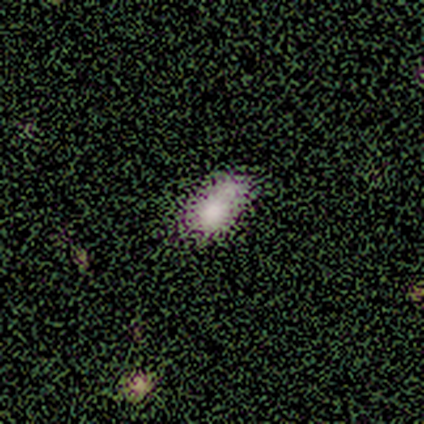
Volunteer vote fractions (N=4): Smooth or featured?
  - smooth: 50% * (tied)
  - star or artifact: 50% * (tied)
  - featured or disk: 0%
How rounded?
  - in between: 100% *
  - round: 0%
  - cigar-shaped: 0%
Merging?
  - none: 100% *
  - minor disturbance: 0%
  - major disturbance: 0%
  - merger: 0%